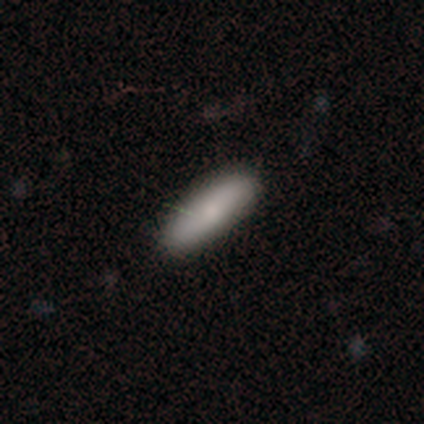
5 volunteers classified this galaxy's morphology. A smooth galaxy with no disk features (100%) that is cigar-shaped (80%).

Vote fractions:
- Smooth or featured? smooth: 100% / featured or disk: 0% / star or artifact: 0%
- How rounded? cigar-shaped: 80% / in between: 20% / round: 0%
- Merging? none: 80% / minor disturbance: 20% / major disturbance: 0% / merger: 0%